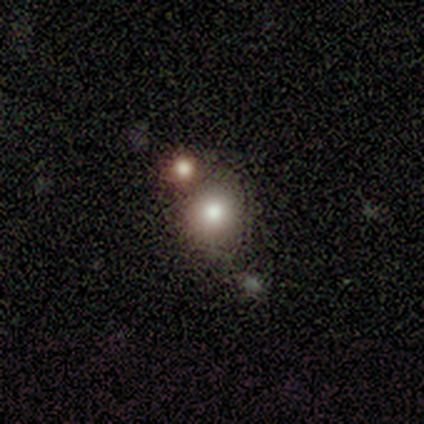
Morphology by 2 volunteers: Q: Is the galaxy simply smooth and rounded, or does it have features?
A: smooth — 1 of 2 (50%, tied with star or artifact).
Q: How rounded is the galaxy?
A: round — 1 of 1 (100%).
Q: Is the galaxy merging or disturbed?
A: merger — 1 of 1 (100%).